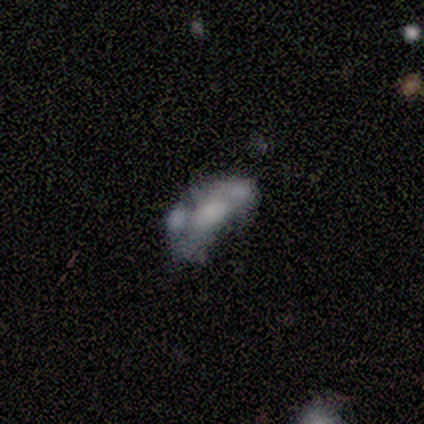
smooth_or_featured: featured or disk (p=0.53) [alt: smooth p=0.34]
disk_edge_on: no (p=0.95) [alt: yes p=0.05]
bar: no (p=0.84) [alt: weak p=0.16]
has_spiral_arms: no (p=0.89) [alt: yes p=0.11]
bulge_size: large (p=0.37) [alt: none p=0.32]
merging: merger (p=0.42) [alt: major disturbance p=0.27]